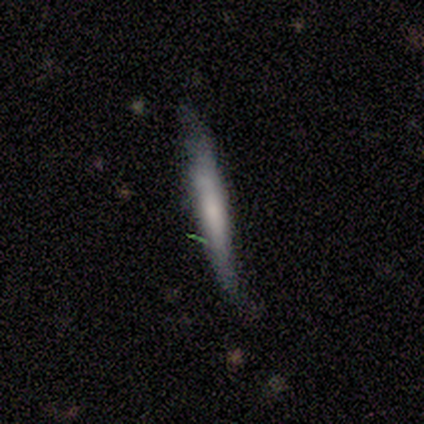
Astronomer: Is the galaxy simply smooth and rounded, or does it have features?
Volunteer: smooth — 50%, tied with featured or disk at 50%.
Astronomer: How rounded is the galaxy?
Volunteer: cigar-shaped — 100%.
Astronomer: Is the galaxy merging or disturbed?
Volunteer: none — 50%, tied with minor disturbance at 50%.